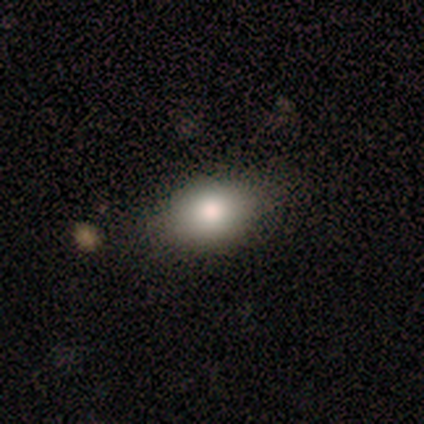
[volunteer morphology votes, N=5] Q: Smooth or featured?
A: smooth (100%)
Q: How rounded?
A: in between (80%); runner-up: round (20%)
Q: Merging?
A: none (80%); runner-up: minor disturbance (20%)